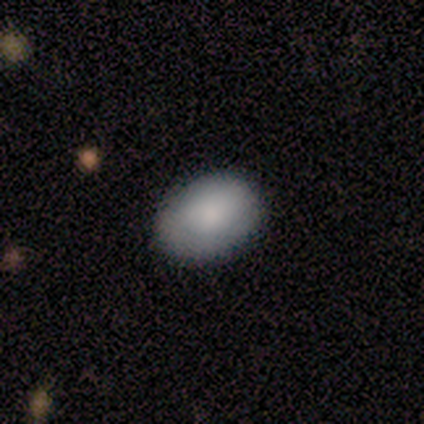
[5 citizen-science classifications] Smooth or featured?
  - smooth: 80% *
  - star or artifact: 20%
  - featured or disk: 0%
How rounded?
  - in between: 100% *
  - round: 0%
  - cigar-shaped: 0%
Merging?
  - none: 100% *
  - minor disturbance: 0%
  - major disturbance: 0%
  - merger: 0%